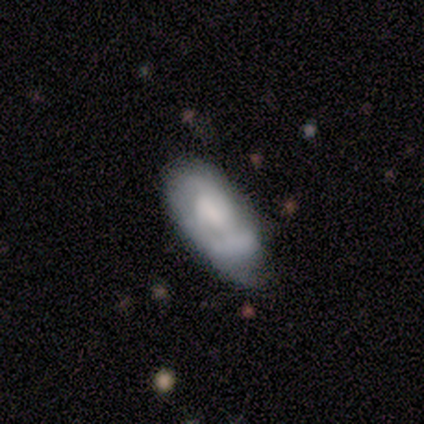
Overall: smooth (60%; featured or disk 20%). How rounded: in between (100%). Merging: none (75%).